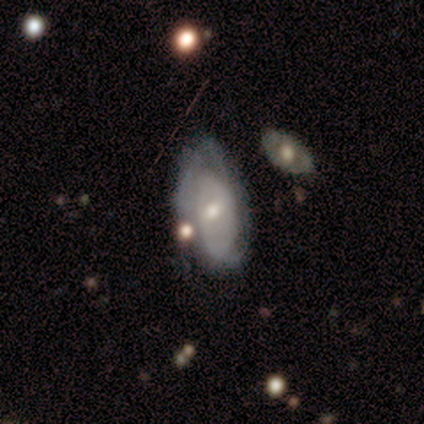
This is clearly a featured or disk galaxy (80%). It is clearly not viewed edge-on (100%). Bar: likely no (75%). Spiral arm pattern: likely yes (75%). Spiral arm count: clearly 2 (100%). Spiral winding: likely medium (67%). Central bulge: likely moderate (75%). Merging: marginally none (40%, tied with minor disturbance).